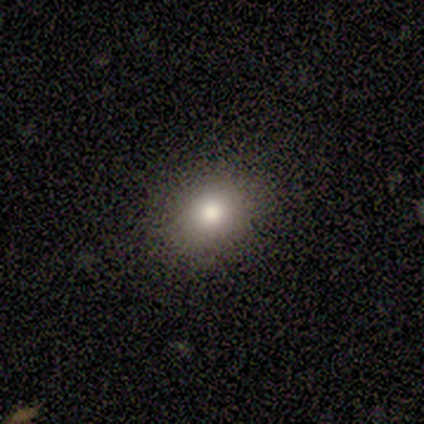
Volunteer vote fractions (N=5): Q: Smooth or featured?
A: smooth (100%)
Q: How rounded?
A: in between (80%); runner-up: round (20%)
Q: Merging?
A: none (100%)